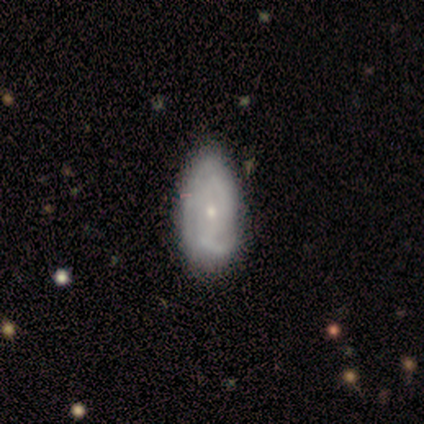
Smooth or featured: featured or disk — 68% (smooth — 30%)
Edge-on disk: no — 96% (yes — 4%)
Bar: no — 73% (weak — 23%)
Spiral arms: yes — 96% (no — 4%)
Spiral winding: medium — 40% (tight — 36%)
Spiral arm count: can't tell — 52% (2 — 28%)
Bulge size: small — 65% (moderate — 35%)
Merging: none — 49% (minor disturbance — 21%)